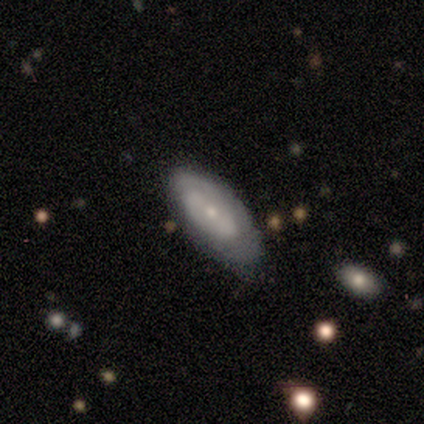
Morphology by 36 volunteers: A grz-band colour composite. It shows a featured or disk galaxy (61%) with no bar (65%), no spiral arms (53%) and a small central bulge (76%). Merging: none (67%).